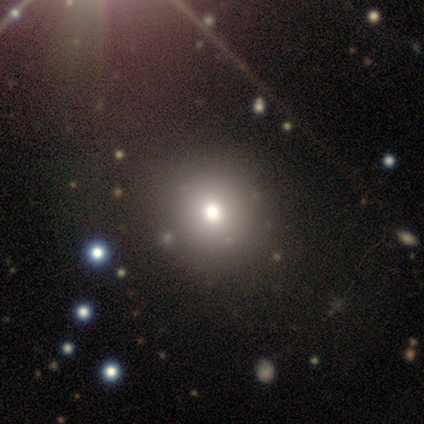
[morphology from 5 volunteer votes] type=smooth (80%); roundness=round (100%); merging=none (100%).